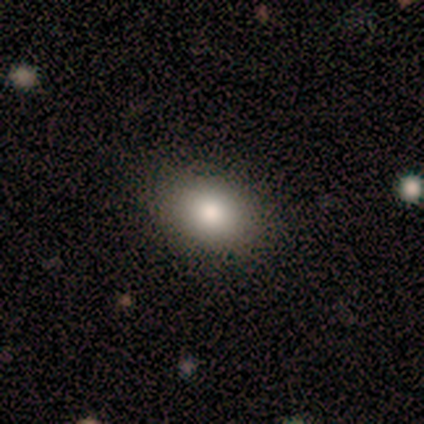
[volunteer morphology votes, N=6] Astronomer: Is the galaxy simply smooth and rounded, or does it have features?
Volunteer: smooth — 100%.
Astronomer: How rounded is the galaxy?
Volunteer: round — 50%, tied with in between at 50%.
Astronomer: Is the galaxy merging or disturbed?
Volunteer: none — 100%.